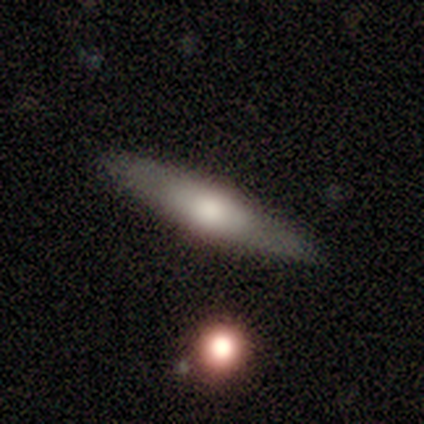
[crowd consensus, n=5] featured or disk 60%, smooth 40%, star or artifact 0%. Down the decision tree: edge-on disk — yes (67%); edge-on bulge — none (50%, tied with rounded); merging — none (80%).